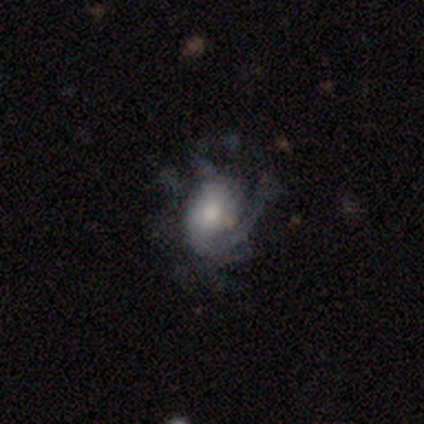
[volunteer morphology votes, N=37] Smooth or featured?
  - featured or disk: 68% *
  - smooth: 30%
  - star or artifact: 3%
Edge-on disk?
  - no: 92% *
  - yes: 8%
Bar?
  - no: 65% *
  - weak: 35%
  - strong: 0%
Spiral arms?
  - yes: 78% *
  - no: 22%
Spiral winding?
  - medium: 44% *
  - tight: 28%
  - loose: 28%
Spiral arm count?
  - 1: 33% * (tied)
  - can't tell: 33% * (tied)
  - 2: 17%
  - 3: 6%
  - 4: 6%
  - more than 4: 6%
Bulge size?
  - small: 39% *
  - moderate: 22%
  - large: 17%
  - dominant: 13%
  - none: 9%
Merging?
  - none: 42% *
  - major disturbance: 33%
  - minor disturbance: 25%
  - merger: 0%